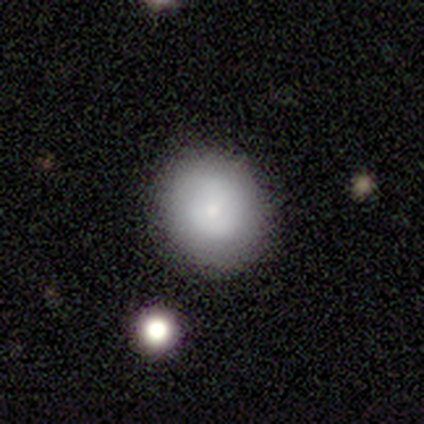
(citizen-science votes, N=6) smooth_or_featured: smooth (p=0.83) [alt: featured or disk p=0.17]
how_rounded: round (p=1.00)
merging: none (p=0.83) [alt: minor disturbance p=0.17]